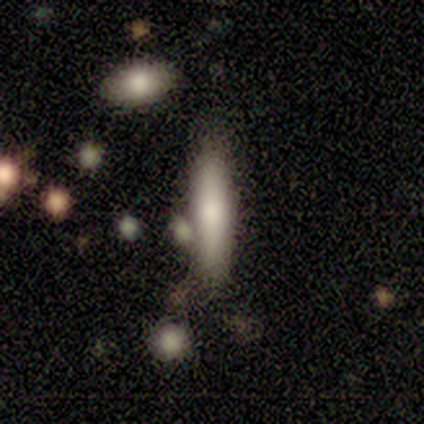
A smooth galaxy with no disk features (81%) that is cigar-shaped (85%). Merging: none (57%).